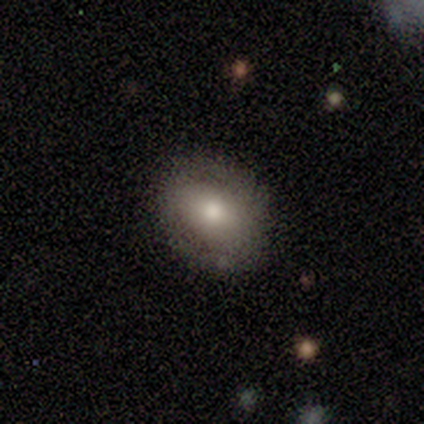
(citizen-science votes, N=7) Smooth or featured? smooth (86%)
How rounded? in between (67%)
Merging? none (86%)